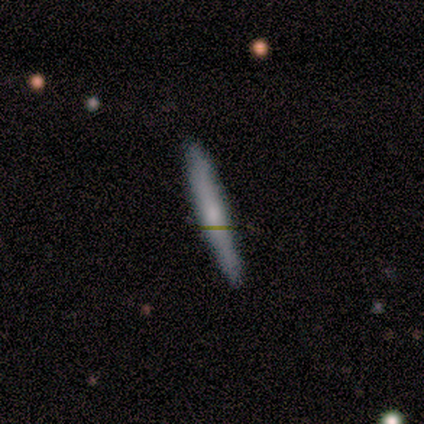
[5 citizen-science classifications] A smooth galaxy with no disk features (60%) that is cigar-shaped (100%).

Vote fractions:
- Smooth or featured? smooth: 60% / featured or disk: 40% / star or artifact: 0%
- How rounded? cigar-shaped: 100% / round: 0% / in between: 0%
- Merging? none: 100% / minor disturbance: 0% / major disturbance: 0% / merger: 0%